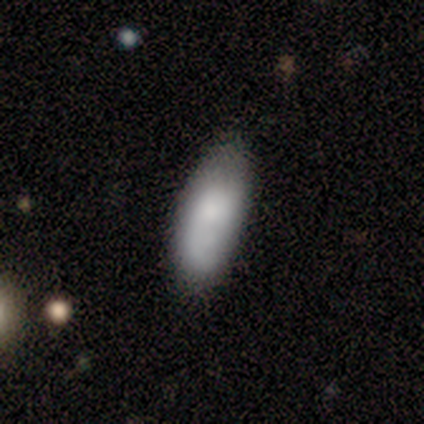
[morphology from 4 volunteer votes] Overall: smooth (50%; featured or disk 25%). How rounded: in between (50%, tied with cigar-shaped). Merging: none (100%).